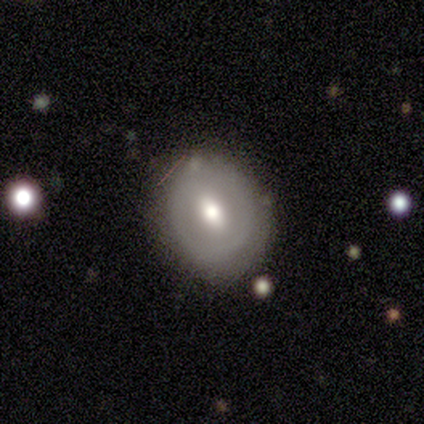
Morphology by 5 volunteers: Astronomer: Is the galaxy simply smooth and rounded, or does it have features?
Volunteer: featured or disk — 80%.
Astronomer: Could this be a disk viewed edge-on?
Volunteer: no — 100%.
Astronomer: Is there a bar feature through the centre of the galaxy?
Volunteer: weak — 75%.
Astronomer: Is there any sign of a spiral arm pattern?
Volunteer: yes — 50%, tied with no at 50%.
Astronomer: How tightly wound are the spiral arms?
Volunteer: tight — 50%, tied with loose at 50%.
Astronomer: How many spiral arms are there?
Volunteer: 1 — 50%, tied with can't tell at 50%.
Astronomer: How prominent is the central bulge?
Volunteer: moderate — 75%.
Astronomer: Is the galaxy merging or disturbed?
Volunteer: none — 100%.